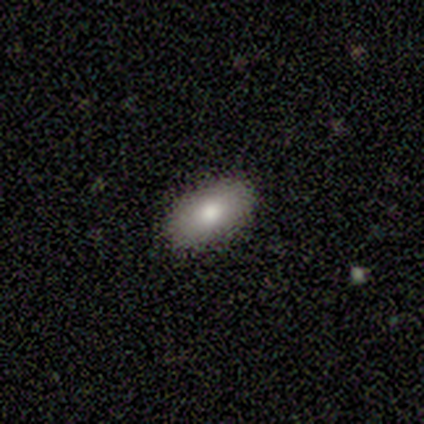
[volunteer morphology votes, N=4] Smooth or featured? smooth (50%)
How rounded? in between (100%)
Merging? none (100%)